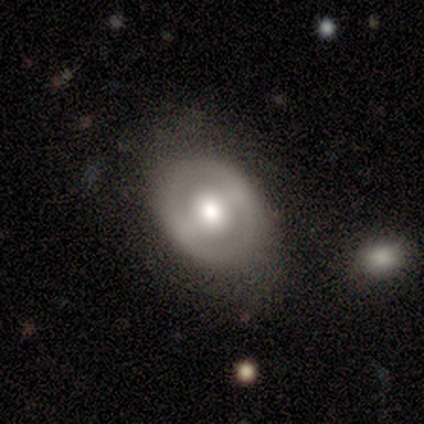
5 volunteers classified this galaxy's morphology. smooth-or-featured: smooth: 80% | featured or disk: 20% | star or artifact: 0%
  how-rounded: in between: 75% | round: 25% | cigar-shaped: 0%
  merging: none: 80% | minor disturbance: 20% | major disturbance: 0% | merger: 0%